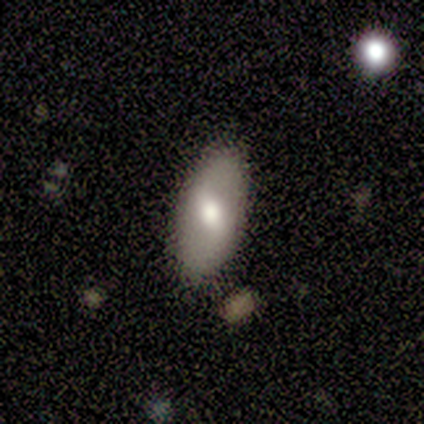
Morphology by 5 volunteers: Volunteers were most divided on "spiral arms" (2-way tie): yes: 50%, no: 50%; "spiral arm count" (2-way tie): 2: 50%, can't tell: 50%, 1: 0%, 3: 0%, 4: 0%, more than 4: 0%. More confident: edge-on disk — no (100%); spiral winding — loose (100%); merging — none (100%); smooth or featured — featured or disk (80%); bar — weak (75%); bulge size — moderate (50%).